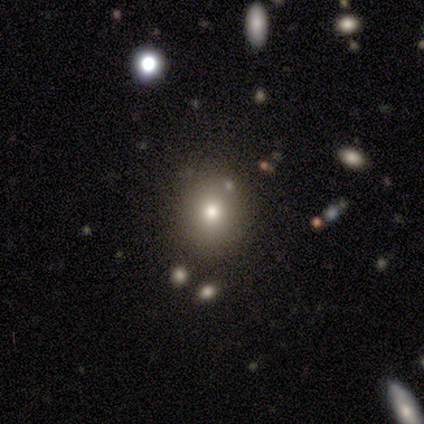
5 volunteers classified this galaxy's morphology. Smooth or featured?
  - smooth: 80% *
  - star or artifact: 20%
  - featured or disk: 0%
How rounded?
  - round: 75% *
  - in between: 25%
  - cigar-shaped: 0%
Merging?
  - none: 75% *
  - minor disturbance: 25%
  - major disturbance: 0%
  - merger: 0%